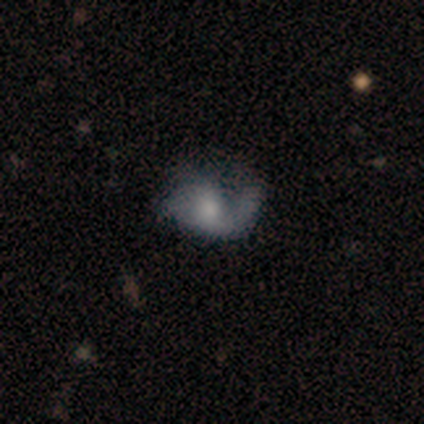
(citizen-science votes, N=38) This appears to be a featured or disk galaxy (76%) with no bar (72%), 1 (68%) loose (73%) spiral arms (76%) and a small central bulge (41%). Merging: none (62%).